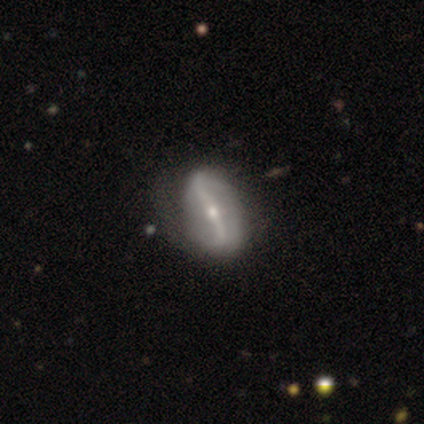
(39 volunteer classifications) Overall: featured or disk (82%). Edge-on disk: no (97%). Bar: strong (74%). Spiral arms: yes (81%). Spiral arm count: 2 (84%). Spiral winding: loose (60%; tight 20%). Bulge size: moderate (58%; small 42%). Merging: none (58%; minor disturbance 28%).